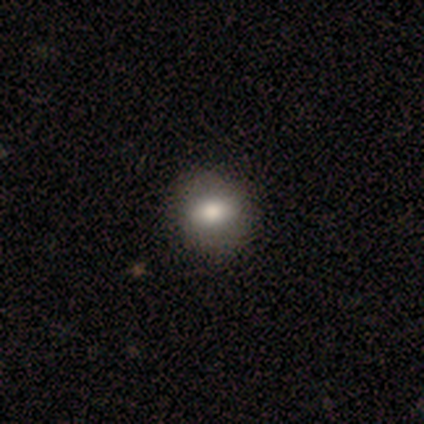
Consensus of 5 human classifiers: smooth_or_featured: smooth (p=0.60) [alt: featured or disk p=0.40]
how_rounded: round (p=1.00)
merging: none (p=1.00)